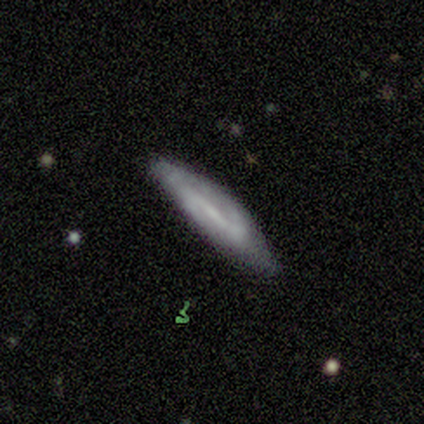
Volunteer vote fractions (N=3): A smooth galaxy with no disk features (67%) that is in between round and cigar-shaped (100%).

Vote fractions:
- Smooth or featured? smooth: 67% / featured or disk: 33% / star or artifact: 0%
- How rounded? in between: 100% / round: 0% / cigar-shaped: 0%
- Merging? none: 33% (tied) / minor disturbance: 33% (tied) / major disturbance: 33% (tied) / merger: 0%